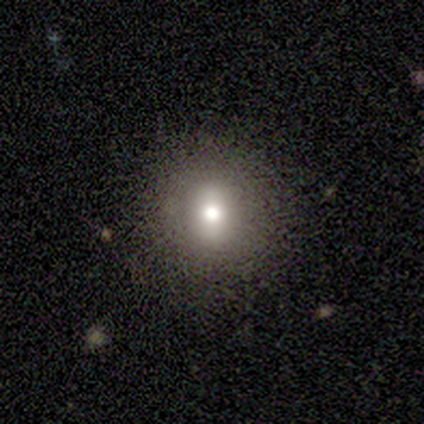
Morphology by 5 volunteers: Smooth or featured: smooth — 100%
How rounded: round — 80% (in between — 20%)
Merging: none — 80% (minor disturbance — 20%)